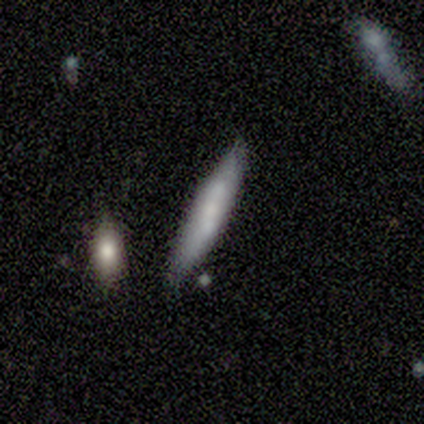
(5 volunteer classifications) Smooth or featured?
  - smooth: 60% *
  - featured or disk: 40%
  - star or artifact: 0%
How rounded?
  - cigar-shaped: 100% *
  - round: 0%
  - in between: 0%
Merging?
  - none: 80% *
  - minor disturbance: 20%
  - major disturbance: 0%
  - merger: 0%